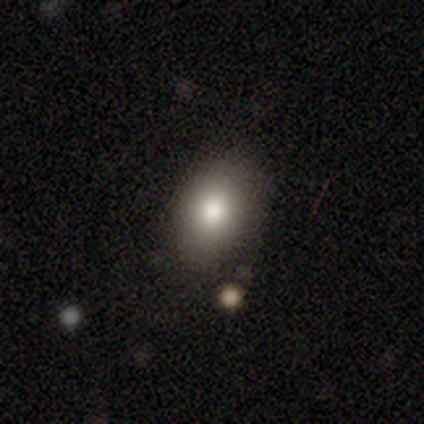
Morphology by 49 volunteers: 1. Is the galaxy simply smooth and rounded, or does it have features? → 88% smooth, 6% featured or disk, 6% star or artifact.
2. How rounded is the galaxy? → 79% in between, 21% round, 0% cigar-shaped.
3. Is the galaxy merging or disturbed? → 80% none, 15% minor disturbance, 2% major disturbance, 2% merger.